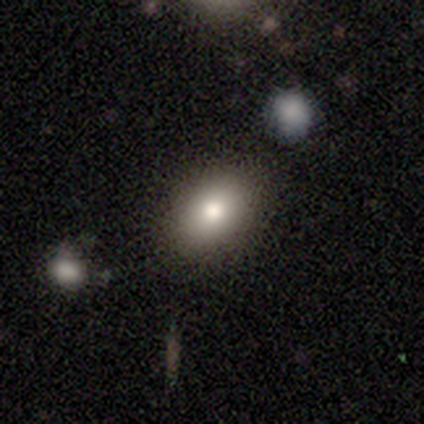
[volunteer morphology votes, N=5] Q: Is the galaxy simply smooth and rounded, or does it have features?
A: smooth — 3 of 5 (60%).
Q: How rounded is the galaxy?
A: in between — 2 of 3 (67%).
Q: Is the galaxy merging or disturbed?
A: none — 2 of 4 (50%).